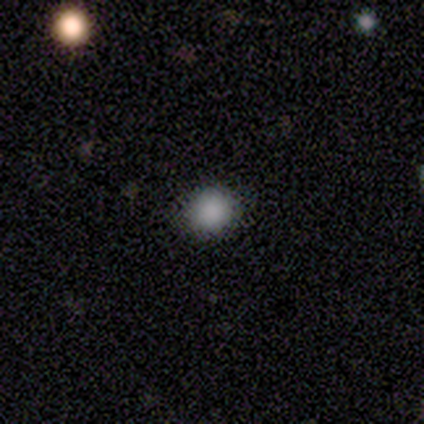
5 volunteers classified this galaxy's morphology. Q: Smooth or featured?
A: smooth (80%); runner-up: star or artifact (20%)
Q: How rounded?
A: round (100%)
Q: Merging?
A: none (100%)